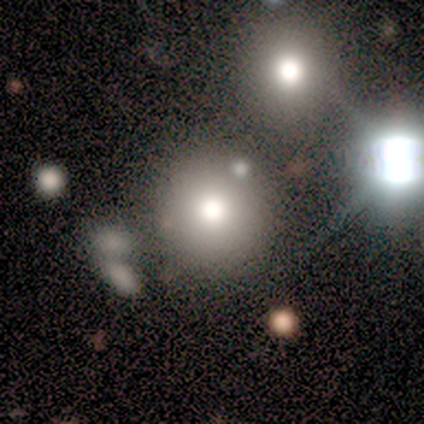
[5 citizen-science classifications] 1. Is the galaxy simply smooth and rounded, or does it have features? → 100% smooth, 0% featured or disk, 0% star or artifact.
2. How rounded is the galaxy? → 100% round, 0% in between, 0% cigar-shaped.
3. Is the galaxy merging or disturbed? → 100% none, 0% minor disturbance, 0% major disturbance, 0% merger.